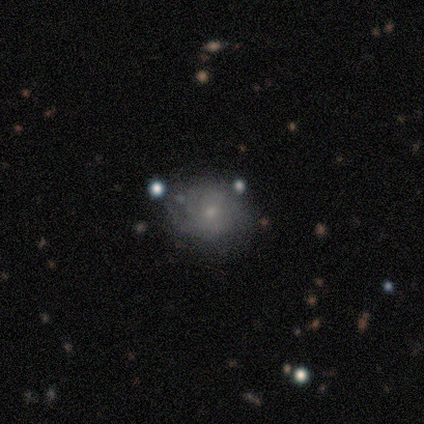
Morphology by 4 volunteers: smooth_or_featured: featured or disk (p=0.75) [alt: smooth p=0.25]
disk_edge_on: no (p=1.00)
bar: no (p=0.67) [alt: weak p=0.33]
has_spiral_arms: yes (p=1.00)
spiral_winding: medium (p=0.67) [alt: tight p=0.33]
spiral_arm_count: 2 (p=0.67) [alt: can't tell p=0.33]
bulge_size: small (p=1.00)
merging: none (p=0.75) [alt: minor disturbance p=0.25]